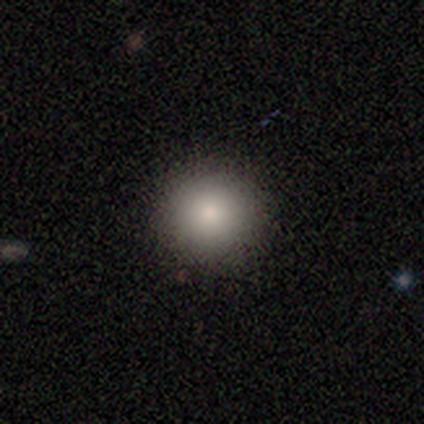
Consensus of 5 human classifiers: A smooth galaxy with no disk features (80%) that is round (100%).

Vote fractions:
- Smooth or featured? smooth: 80% / star or artifact: 20% / featured or disk: 0%
- How rounded? round: 100% / in between: 0% / cigar-shaped: 0%
- Merging? none: 100% / minor disturbance: 0% / major disturbance: 0% / merger: 0%